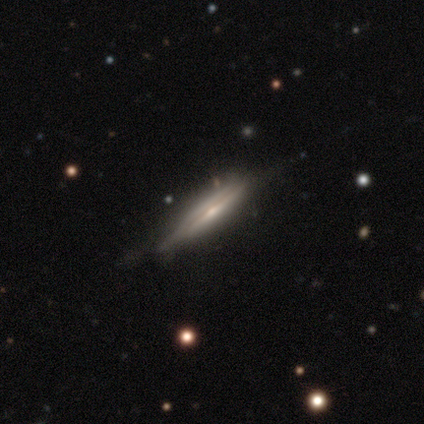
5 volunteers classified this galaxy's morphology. Smooth or featured: featured or disk — 100%
Edge-on disk: yes — 100%
Edge-on bulge: rounded — 60% (boxy — 40%)
Merging: none — 80% (minor disturbance — 20%)